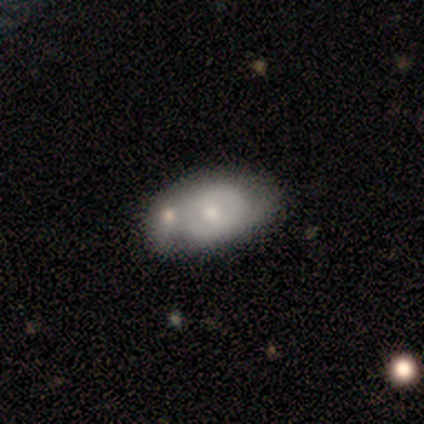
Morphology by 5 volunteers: Q: Smooth or featured?
A: smooth (80%); runner-up: featured or disk (20%)
Q: How rounded?
A: in between (75%); runner-up: round (25%)
Q: Merging?
A: minor disturbance (80%); runner-up: none (20%)